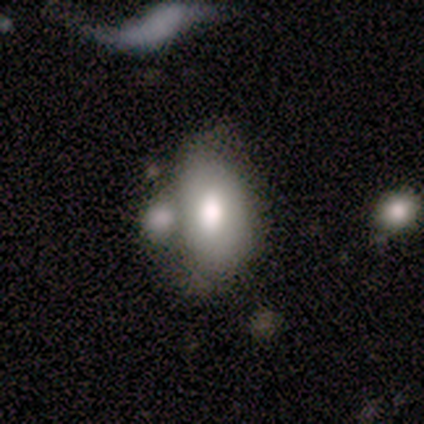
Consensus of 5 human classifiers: smooth-or-featured: featured or disk: 40% (tied) | star or artifact: 40% (tied) | smooth: 20%
  disk-edge-on: no: 100% | yes: 0%
    bar: no: 100% | strong: 0% | weak: 0%
    has-spiral-arms: no: 100% | yes: 0%
    bulge-size: moderate: 100% | dominant: 0% | large: 0% | small: 0% | none: 0%
  merging: major disturbance: 67% | none: 33% | minor disturbance: 0% | merger: 0%